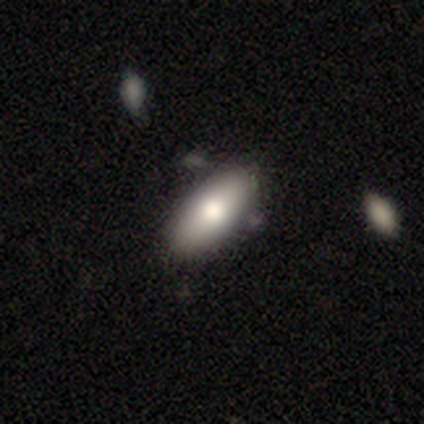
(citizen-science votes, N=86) smooth 81%, featured or disk 13%, star or artifact 6%. Down the decision tree: how rounded — in between (87%); merging — none (70%).